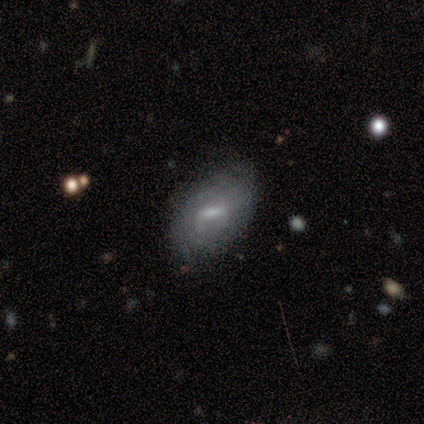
smooth 60%, featured or disk 40%, star or artifact 0%. Down the decision tree: how rounded — in between (100%); merging — none (60%).